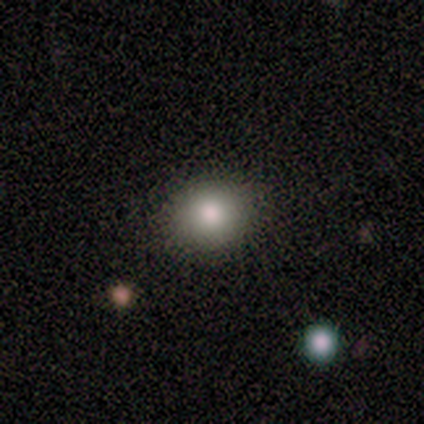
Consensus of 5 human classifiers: Overall: smooth (100%). How rounded: round (80%). Merging: none (100%).